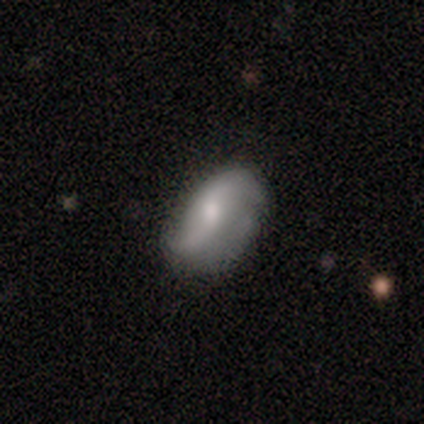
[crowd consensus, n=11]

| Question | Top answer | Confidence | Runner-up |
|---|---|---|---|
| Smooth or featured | featured or disk | 73% | smooth (27%) |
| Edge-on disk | no | 100% | — |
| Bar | no | 50% | weak (38%) |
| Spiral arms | yes | 100% | — |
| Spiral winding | loose | 88% | medium (12%) |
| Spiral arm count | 2 | 100% | — |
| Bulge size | moderate | 75% | large (12%) |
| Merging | none | 64% | minor disturbance (18%) |